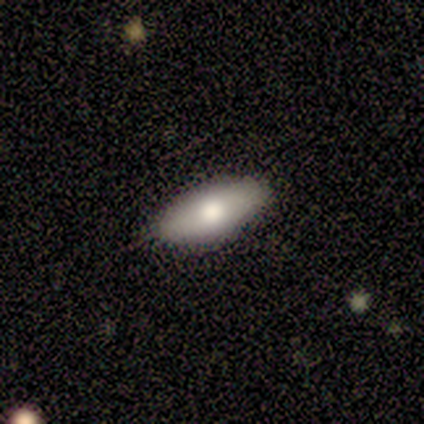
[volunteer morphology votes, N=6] This is clearly a smooth galaxy (83%). How rounded: clearly in between (100%). Merging: likely none (60%).